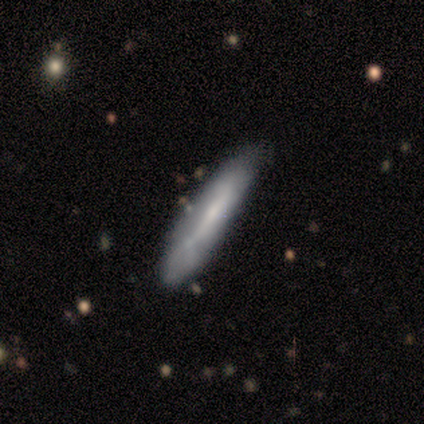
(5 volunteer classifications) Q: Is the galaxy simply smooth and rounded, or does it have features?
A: featured or disk — 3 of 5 (60%).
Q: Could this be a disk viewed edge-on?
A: no — 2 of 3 (67%).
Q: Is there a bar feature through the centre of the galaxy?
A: strong — 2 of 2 (100%).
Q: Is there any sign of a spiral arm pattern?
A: yes — 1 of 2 (50%, tied with no).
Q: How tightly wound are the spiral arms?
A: loose — 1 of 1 (100%).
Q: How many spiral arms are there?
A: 2 — 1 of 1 (100%).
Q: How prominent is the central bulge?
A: moderate — 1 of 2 (50%, tied with small).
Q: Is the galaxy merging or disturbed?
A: none — 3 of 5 (60%).